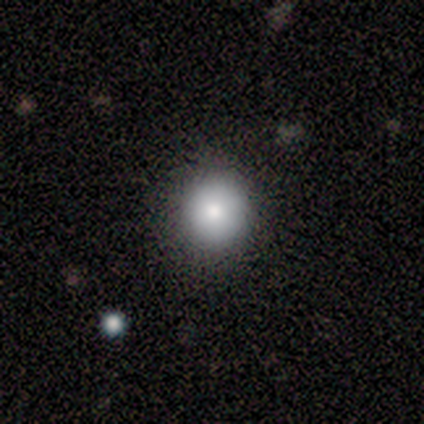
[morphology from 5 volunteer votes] smooth 100%, featured or disk 0%, star or artifact 0%. Down the decision tree: how rounded — round (80%); merging — none (100%).